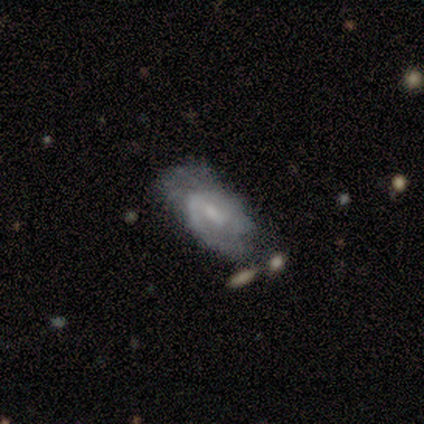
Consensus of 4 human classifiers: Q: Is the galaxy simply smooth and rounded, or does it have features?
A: featured or disk — 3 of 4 (75%).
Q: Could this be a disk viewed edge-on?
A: no — 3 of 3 (100%).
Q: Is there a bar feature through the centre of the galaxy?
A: weak — 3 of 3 (100%).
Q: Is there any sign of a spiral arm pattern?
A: yes — 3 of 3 (100%).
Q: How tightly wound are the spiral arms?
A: medium — 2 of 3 (67%).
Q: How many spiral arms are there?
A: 2 — 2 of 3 (67%).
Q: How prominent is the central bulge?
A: small — 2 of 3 (67%).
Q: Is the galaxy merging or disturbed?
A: minor disturbance — 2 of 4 (50%).